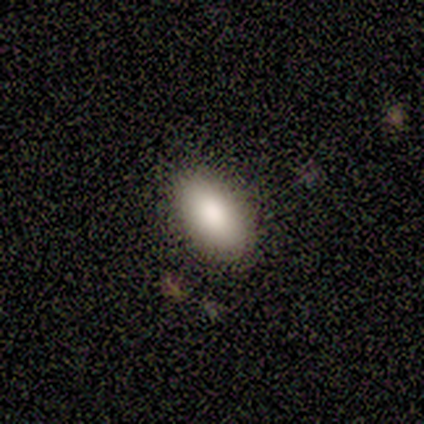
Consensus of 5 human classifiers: This appears to be a smooth galaxy with no disk features (100%) that is in between round and cigar-shaped (80%). Merging: none (100%).